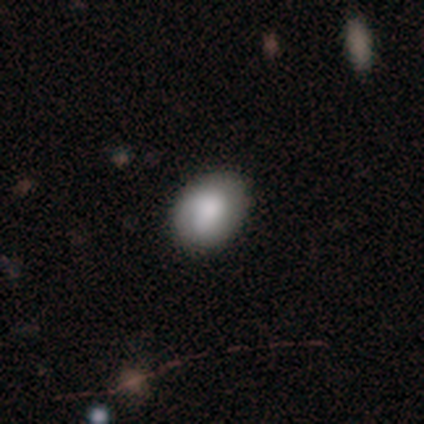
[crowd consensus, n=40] smooth-or-featured: smooth: 88% | featured or disk: 8% | star or artifact: 5%
  how-rounded: in between: 74% | round: 26% | cigar-shaped: 0%
  merging: none: 84% | minor disturbance: 16% | major disturbance: 0% | merger: 0%